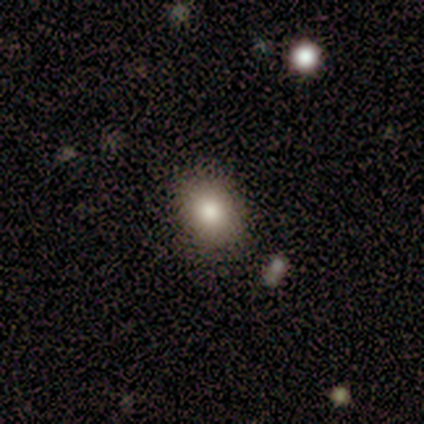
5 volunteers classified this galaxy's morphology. Q: Smooth or featured?
A: smooth (60%); runner-up: featured or disk (20%)
Q: How rounded?
A: round (67%); runner-up: in between (33%)
Q: Merging?
A: none (75%); runner-up: minor disturbance (25%)